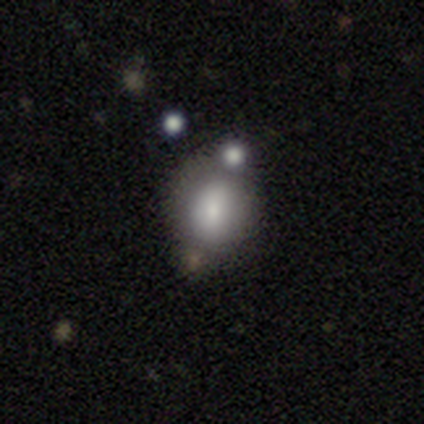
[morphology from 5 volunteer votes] A smooth galaxy with no disk features (100%) that is in between round and cigar-shaped (80%). Merging: none (60%).